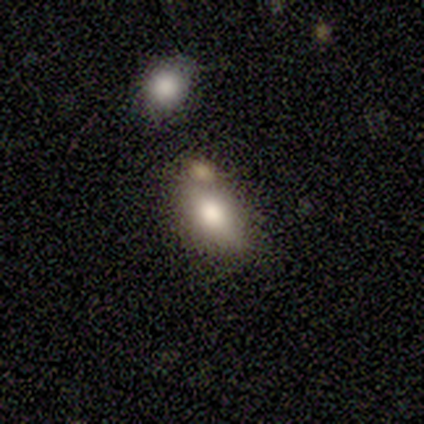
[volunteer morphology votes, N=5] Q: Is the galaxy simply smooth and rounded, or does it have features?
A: smooth — 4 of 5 (80%).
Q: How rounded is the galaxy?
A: in between — 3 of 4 (75%).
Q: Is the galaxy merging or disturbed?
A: none — 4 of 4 (100%).